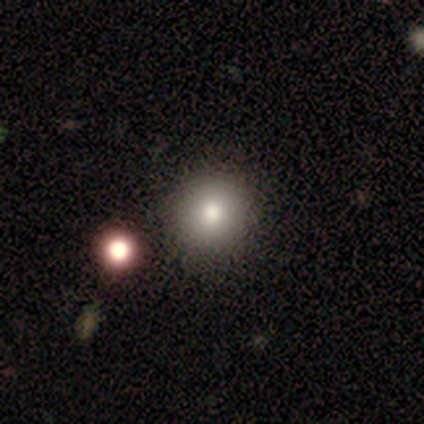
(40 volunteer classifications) Volunteers were most divided on "smooth or featured": smooth: 75%, star or artifact: 15%, featured or disk: 10%. More confident: how rounded — round (100%); merging — none (74%).